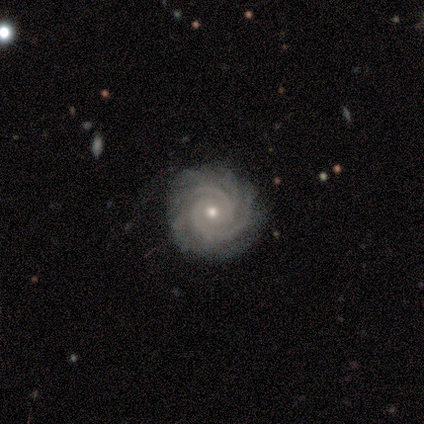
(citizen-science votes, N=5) A featured or disk galaxy (100%) with no bar (100%), 2 (40%, tied with can't tell) tight (80%) spiral arms (100%) and a small central bulge (60%). Merging: none (60%).